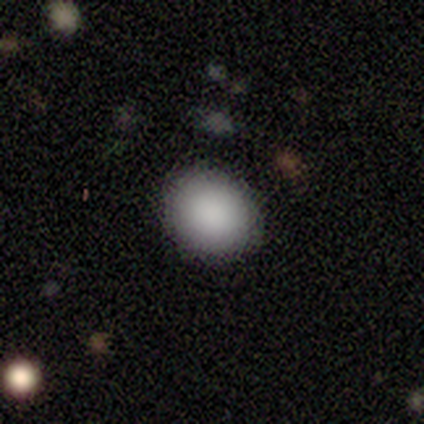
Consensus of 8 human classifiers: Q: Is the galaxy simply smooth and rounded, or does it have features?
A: smooth — 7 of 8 (88%).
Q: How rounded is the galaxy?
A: round — 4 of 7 (57%).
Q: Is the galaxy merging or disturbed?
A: none — 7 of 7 (100%).